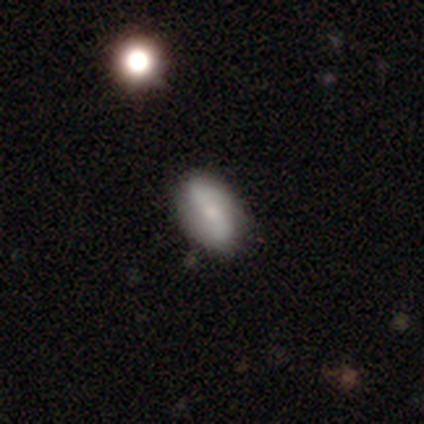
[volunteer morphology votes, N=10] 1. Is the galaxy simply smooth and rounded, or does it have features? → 70% smooth, 30% featured or disk, 0% star or artifact.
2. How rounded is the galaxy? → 100% in between, 0% round, 0% cigar-shaped.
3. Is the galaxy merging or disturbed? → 70% none, 20% minor disturbance, 10% major disturbance, 0% merger.